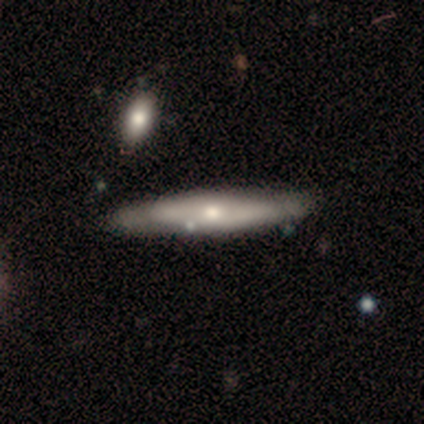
featured or disk 60%, smooth 20%, star or artifact 20%. Down the decision tree: edge-on disk — yes (100%); edge-on bulge — boxy (33%, tied with none and rounded); merging — none (75%).